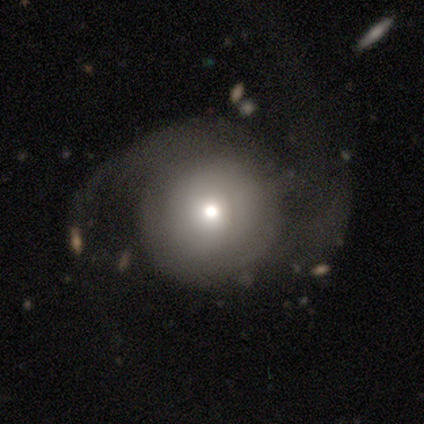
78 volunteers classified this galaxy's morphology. Smooth or featured: featured or disk — 62% (smooth — 33%)
Edge-on disk: no — 98% (yes — 2%)
Bar: no — 89% (weak — 6%)
Spiral arms: yes — 68% (no — 32%)
Spiral winding: medium — 41% (loose — 38%)
Spiral arm count: 2 — 69% (can't tell — 25%)
Bulge size: moderate — 47% (small — 36%)
Merging: none — 23% (tied with major disturbance — 23%)